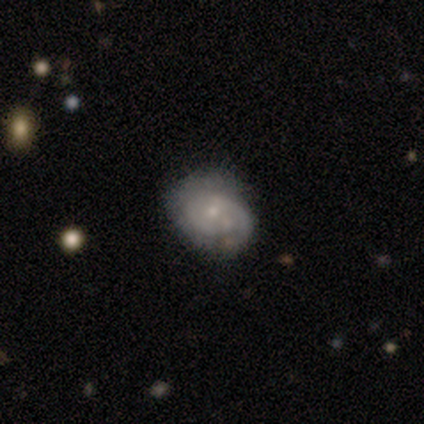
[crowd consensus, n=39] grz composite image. It shows a featured or disk galaxy (62%) with no bar (83%), 2 (44%) tight (78%) spiral arms (75%) and a small central bulge (71%). Merging: none (53%).